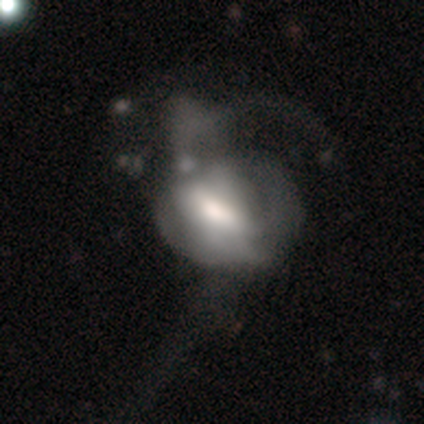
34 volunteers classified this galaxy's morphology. smooth-or-featured: featured or disk: 62% | smooth: 26% | star or artifact: 12%
  disk-edge-on: no: 95% | yes: 5%
    bar: weak: 45% (tied) | no: 45% (tied) | strong: 10%
    has-spiral-arms: no: 55% | yes: 45%
    bulge-size: moderate: 55% | large: 25% | small: 15% | dominant: 5% | none: 0%
  merging: major disturbance: 53% | merger: 23% | minor disturbance: 20% | none: 3%